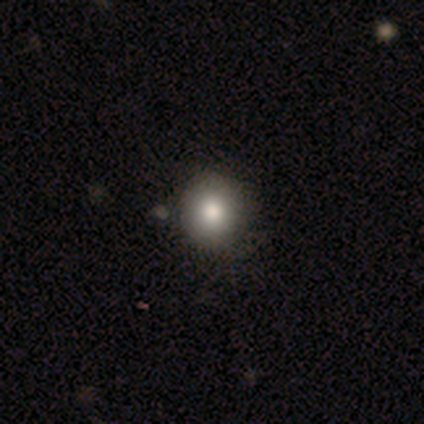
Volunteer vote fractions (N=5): This is clearly a smooth galaxy (100%). How rounded: clearly round (100%). Merging: clearly none (100%).